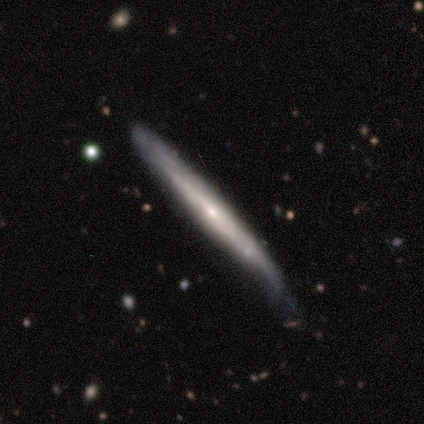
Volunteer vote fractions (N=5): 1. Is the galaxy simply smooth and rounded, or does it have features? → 60% featured or disk, 40% smooth, 0% star or artifact.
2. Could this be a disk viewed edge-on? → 67% yes, 33% no.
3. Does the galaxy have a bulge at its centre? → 100% none, 0% boxy, 0% rounded.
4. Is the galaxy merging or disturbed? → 60% none, 40% minor disturbance, 0% major disturbance, 0% merger.